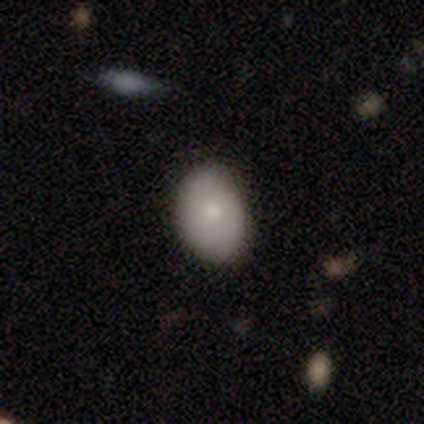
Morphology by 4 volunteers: A smooth galaxy with no disk features (75%) that is in between round and cigar-shaped (100%). Merging: none (100%).